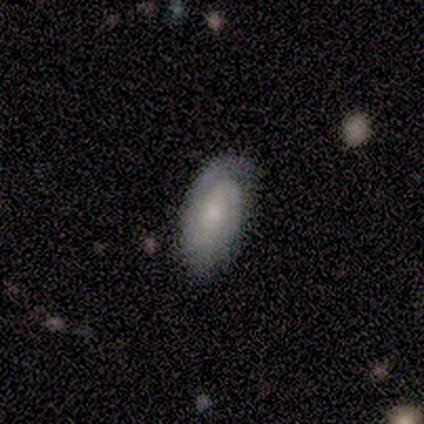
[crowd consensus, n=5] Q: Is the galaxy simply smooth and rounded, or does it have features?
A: featured or disk — 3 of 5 (60%).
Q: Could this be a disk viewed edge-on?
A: no — 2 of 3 (67%).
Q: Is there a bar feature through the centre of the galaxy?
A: no — 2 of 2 (100%).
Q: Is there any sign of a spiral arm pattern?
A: yes — 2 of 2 (100%).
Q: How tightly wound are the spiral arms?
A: tight — 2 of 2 (100%).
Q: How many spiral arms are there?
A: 1 — 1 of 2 (50%, tied with can't tell).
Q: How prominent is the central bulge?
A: small — 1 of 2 (50%, tied with none).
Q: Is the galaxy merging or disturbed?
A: none — 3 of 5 (60%).